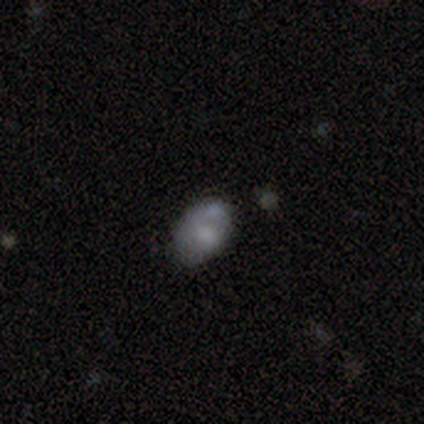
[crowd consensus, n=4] Smooth or featured? 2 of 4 (50%, tied with featured or disk) said smooth. How rounded? 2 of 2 (100%) said in between. Merging? 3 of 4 (75%) said minor disturbance.